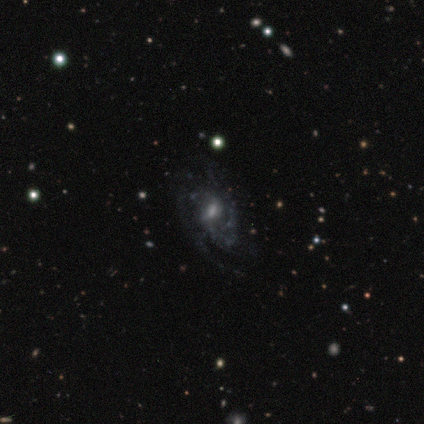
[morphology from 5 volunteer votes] A featured or disk galaxy (80%) with a weak bar (75%), 2 (50%) loose (50%) spiral arms (100%) and a moderate central bulge (50%, tied with small). Merging: major disturbance (50%).